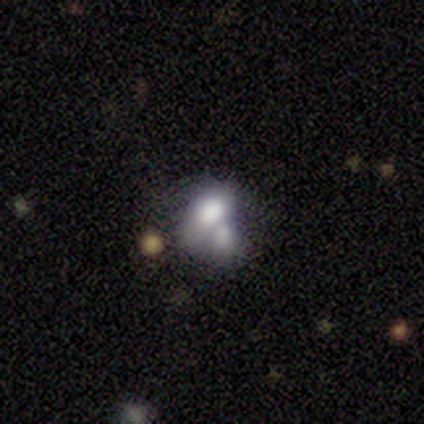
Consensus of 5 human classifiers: smooth_or_featured: smooth (p=1.00)
how_rounded: in between (p=1.00)
merging: merger (p=0.80) [alt: none p=0.20]